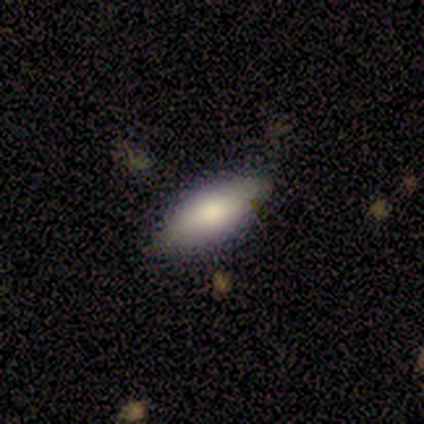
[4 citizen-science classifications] Morphology: type=smooth (75%); roundness=in between (100%); merging=none (75%).